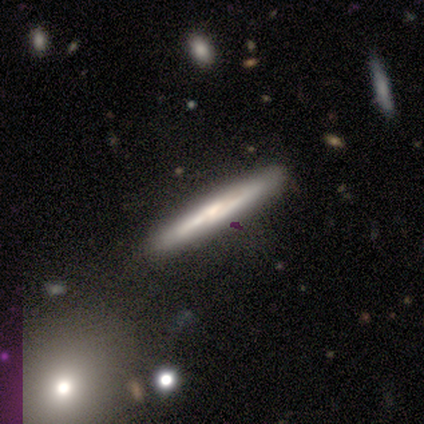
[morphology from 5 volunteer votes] smooth-or-featured: smooth: 40% (tied) | featured or disk: 40% (tied) | star or artifact: 20%
  how-rounded: cigar-shaped: 100% | round: 0% | in between: 0%
  merging: none: 75% | merger: 25% | minor disturbance: 0% | major disturbance: 0%